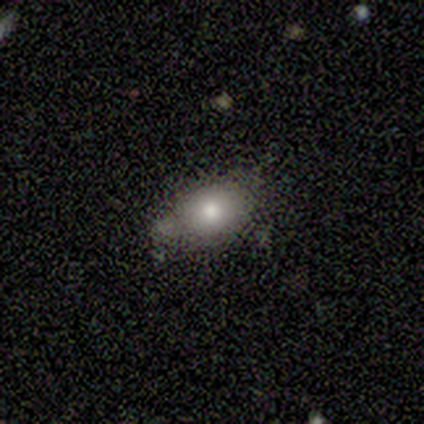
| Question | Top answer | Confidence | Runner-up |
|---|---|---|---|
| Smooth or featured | smooth | 60% | featured or disk (20%) |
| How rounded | in between | 100% | — |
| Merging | minor disturbance | 50% | none (25%) |